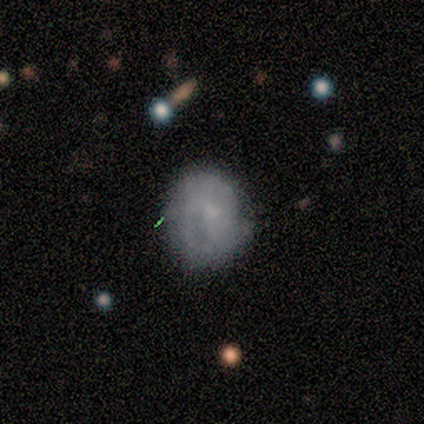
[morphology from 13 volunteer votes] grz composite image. It shows a smooth galaxy with no disk features (69%) that is in between round and cigar-shaped (67%). Merging: none (46%).